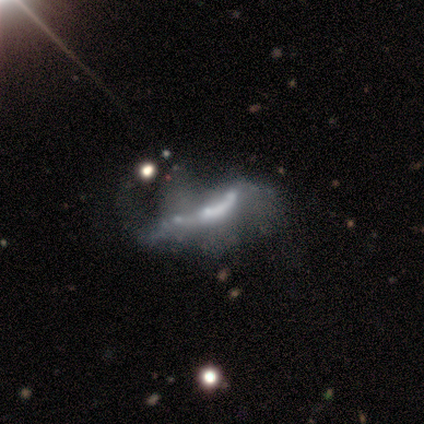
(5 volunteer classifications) featured or disk 80%, star or artifact 20%, smooth 0%. Down the decision tree: edge-on disk — no (75%); bar — no (67%); spiral arms — no (67%); bulge size — moderate (67%); merging — major disturbance (50%).